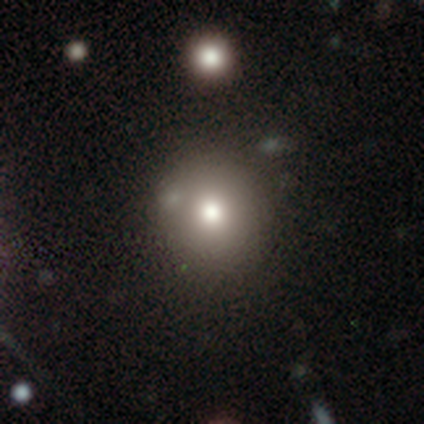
smooth_or_featured: smooth (p=0.77) [alt: featured or disk p=0.15]
how_rounded: round (p=0.87) [alt: in between p=0.12]
merging: none (p=0.35) [alt: merger p=0.26]